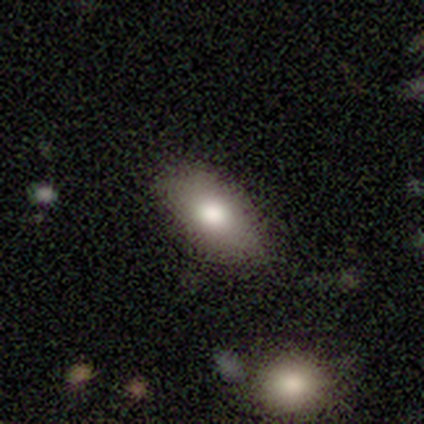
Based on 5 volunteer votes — smooth_or_featured: smooth (p=1.00)
how_rounded: in between (p=1.00)
merging: none (p=0.60) [alt: minor disturbance p=0.40]